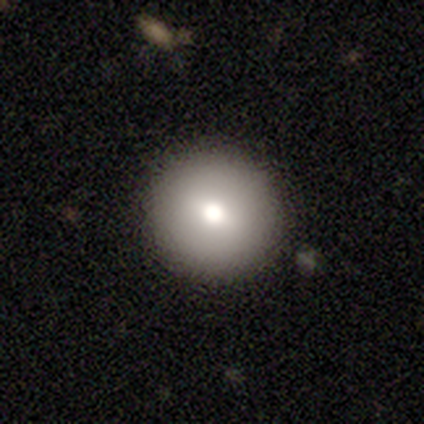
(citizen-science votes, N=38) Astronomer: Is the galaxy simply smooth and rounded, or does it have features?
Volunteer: smooth — 71%.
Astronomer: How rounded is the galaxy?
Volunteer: round — 100%.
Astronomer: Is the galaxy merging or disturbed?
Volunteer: none — 91%.